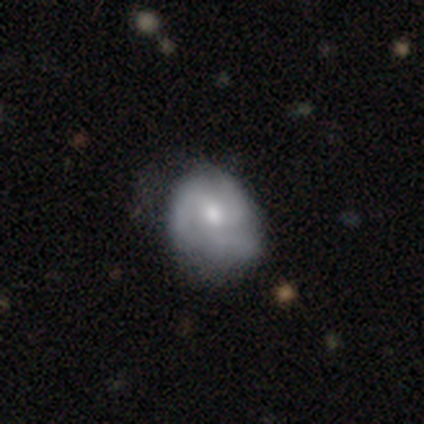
Smooth or featured?
  - featured or disk: 69% *
  - smooth: 28%
  - star or artifact: 3%
Edge-on disk?
  - no: 96% *
  - yes: 4%
Bar?
  - no: 81% *
  - weak: 19%
  - strong: 0%
Spiral arms?
  - yes: 92% *
  - no: 8%
Spiral winding?
  - medium: 46% *
  - tight: 33%
  - loose: 21%
Spiral arm count?
  - 3: 75% *
  - can't tell: 21%
  - 2: 4%
  - 1: 0%
  - 4: 0%
  - more than 4: 0%
Bulge size?
  - moderate: 62% *
  - small: 35%
  - large: 4%
  - dominant: 0%
  - none: 0%
Merging?
  - none: 32% *
  - minor disturbance: 21%
  - major disturbance: 16%
  - merger: 5%